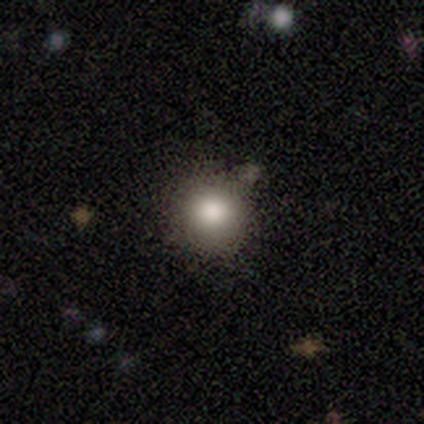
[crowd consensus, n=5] A smooth galaxy with no disk features (100%) that is round (100%). Merging: none (100%).